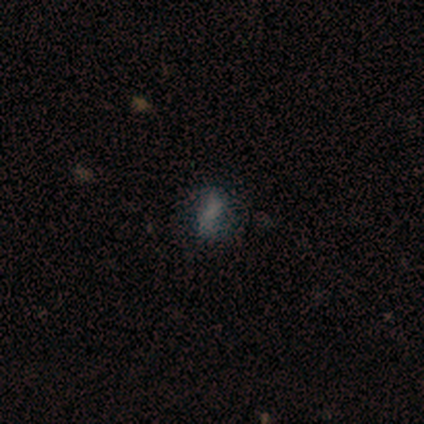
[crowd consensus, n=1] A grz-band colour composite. It shows a featured or disk galaxy (100%) with a weak bar (100%), 2 (100%) tight (100%) spiral arms (100%) and a moderate central bulge (100%). Merging: none (100%).